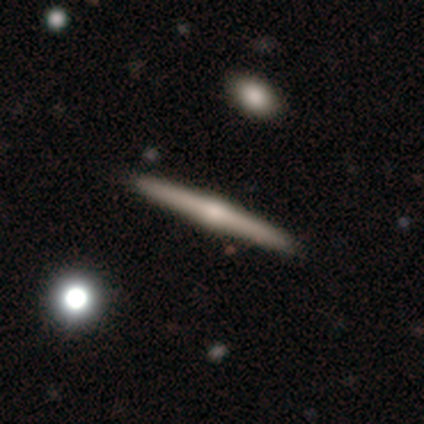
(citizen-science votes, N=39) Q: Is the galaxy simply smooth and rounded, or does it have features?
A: featured or disk — 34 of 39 (87%).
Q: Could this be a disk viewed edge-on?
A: yes — 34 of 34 (100%).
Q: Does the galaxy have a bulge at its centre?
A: rounded — 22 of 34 (65%).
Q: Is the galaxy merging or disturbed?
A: none — 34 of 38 (89%).